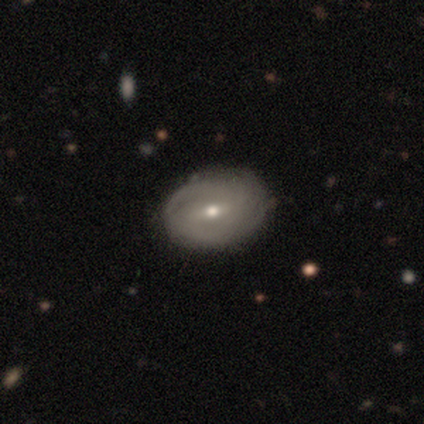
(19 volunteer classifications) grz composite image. It shows a featured or disk galaxy (74%) with a weak bar (62%), 2 (56%) tight (89%) spiral arms (69%) and a small central bulge (54%). Merging: none (79%).